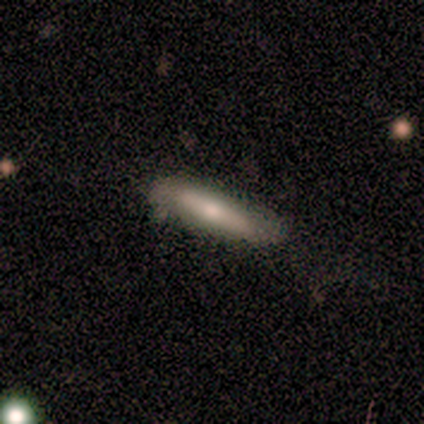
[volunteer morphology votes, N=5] This is likely a featured or disk galaxy (60%). It is clearly viewed edge-on (100%). Edge-on bulge: likely rounded (67%). Merging: clearly none (100%).